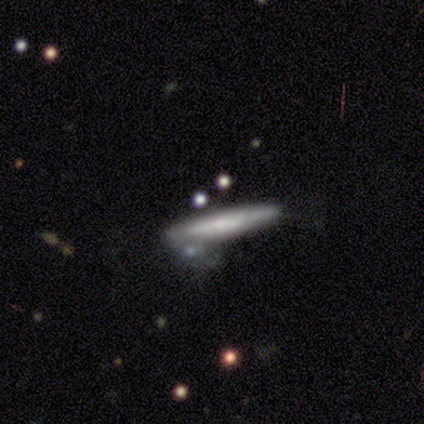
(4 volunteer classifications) A featured or disk galaxy (75%) viewed edge-on (67%) with a rounded central bulge (100%). Merging: minor disturbance (75%).